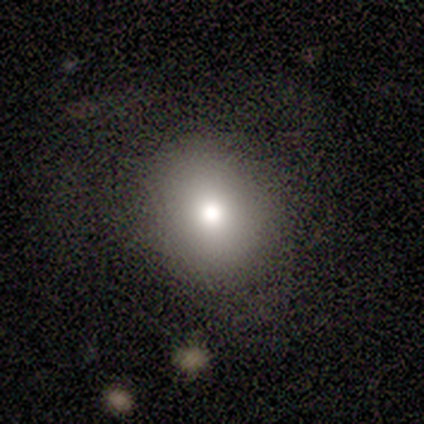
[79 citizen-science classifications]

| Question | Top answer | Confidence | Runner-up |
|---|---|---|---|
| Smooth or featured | smooth | 76% | featured or disk (13%) |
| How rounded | round | 80% | in between (20%) |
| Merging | none | 50% | minor disturbance (7%) |